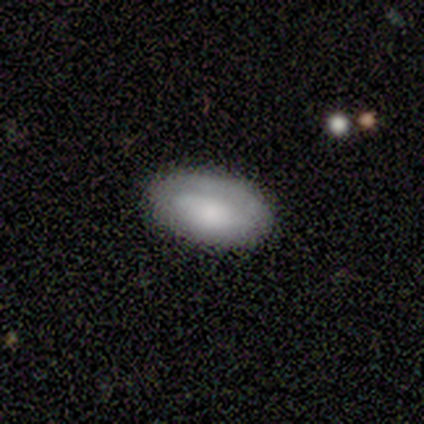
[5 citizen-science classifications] This is clearly a smooth galaxy (100%). How rounded: clearly in between (100%). Merging: clearly none (100%).